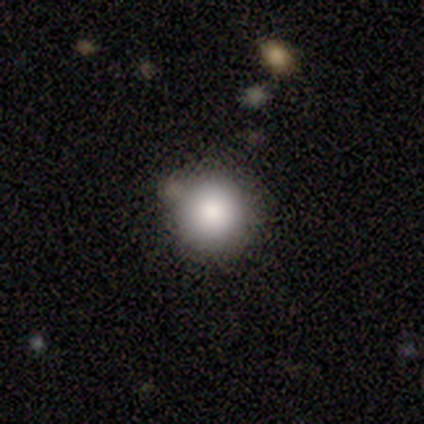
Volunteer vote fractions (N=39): Smooth or featured? 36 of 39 (92%) said smooth. How rounded? 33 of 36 (92%) said round. Merging? 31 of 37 (84%) said none.